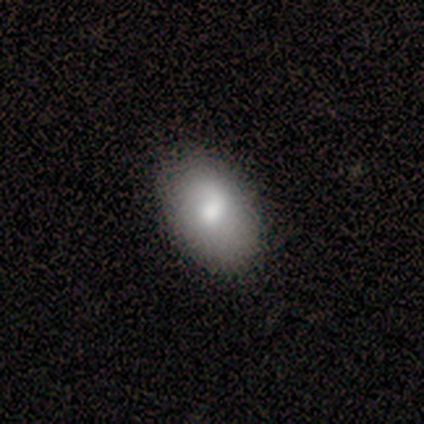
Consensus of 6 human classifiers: Overall: smooth (100%). How rounded: in between (100%). Merging: none (100%).